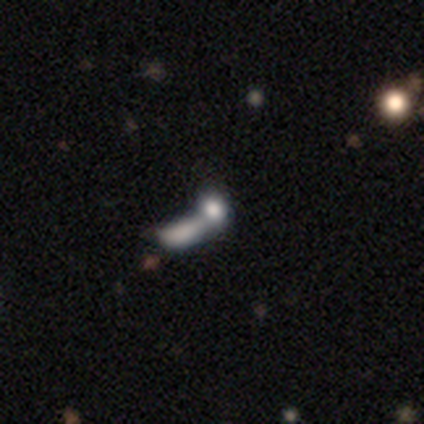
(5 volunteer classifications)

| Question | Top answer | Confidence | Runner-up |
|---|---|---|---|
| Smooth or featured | smooth | 60% | featured or disk (20%) |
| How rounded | in between | 67% | round (33%) |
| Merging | none | 50% | tied: merger (50%) |